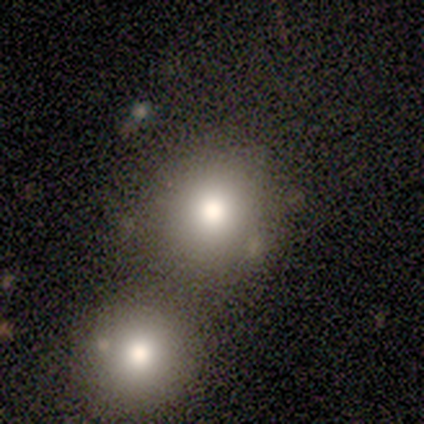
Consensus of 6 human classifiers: Smooth or featured?
  - smooth: 50% *
  - featured or disk: 33%
  - star or artifact: 17%
How rounded?
  - round: 100% *
  - in between: 0%
  - cigar-shaped: 0%
Merging?
  - none: 40% * (tied)
  - merger: 40% * (tied)
  - major disturbance: 20%
  - minor disturbance: 0%